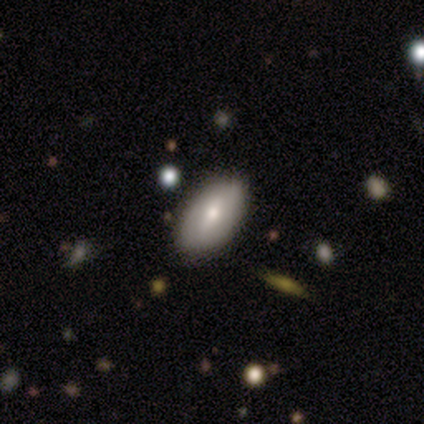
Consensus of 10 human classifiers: Smooth or featured: smooth — 60% (featured or disk — 30%)
How rounded: in between — 100%
Merging: none — 78% (minor disturbance — 22%)